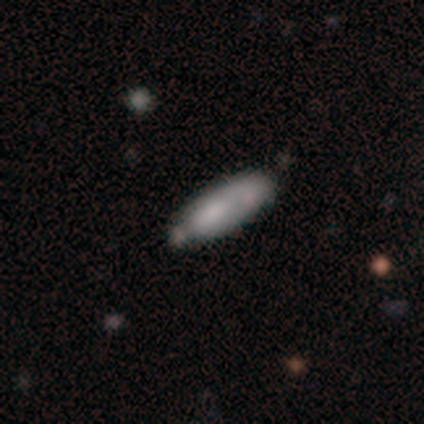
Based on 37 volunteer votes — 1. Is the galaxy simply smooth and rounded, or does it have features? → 81% smooth, 14% featured or disk, 5% star or artifact.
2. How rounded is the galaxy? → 60% in between, 40% cigar-shaped, 0% round.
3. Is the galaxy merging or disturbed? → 46% none, 31% minor disturbance, 17% merger, 6% major disturbance.